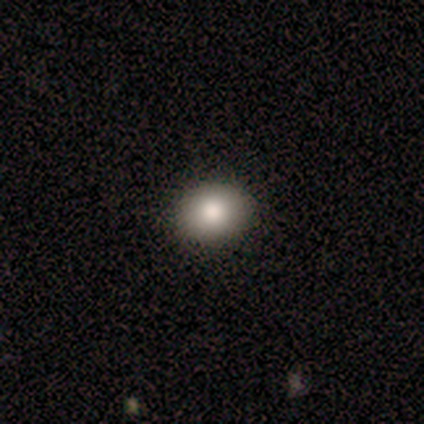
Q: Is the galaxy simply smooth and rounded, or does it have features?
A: smooth — 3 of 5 (60%).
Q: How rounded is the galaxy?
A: in between — 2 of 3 (67%).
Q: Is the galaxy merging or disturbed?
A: none — 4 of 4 (100%).